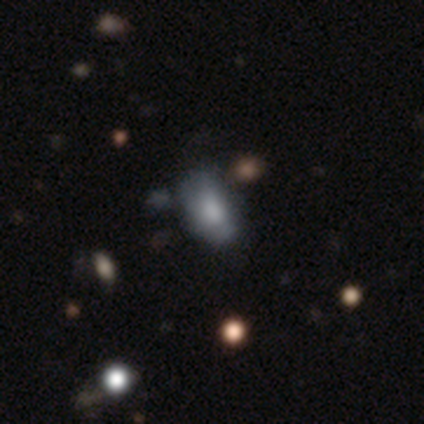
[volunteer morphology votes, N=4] Smooth or featured?
  - smooth: 100% *
  - featured or disk: 0%
  - star or artifact: 0%
How rounded?
  - in between: 75% *
  - round: 25%
  - cigar-shaped: 0%
Merging?
  - none: 75% *
  - minor disturbance: 25%
  - major disturbance: 0%
  - merger: 0%